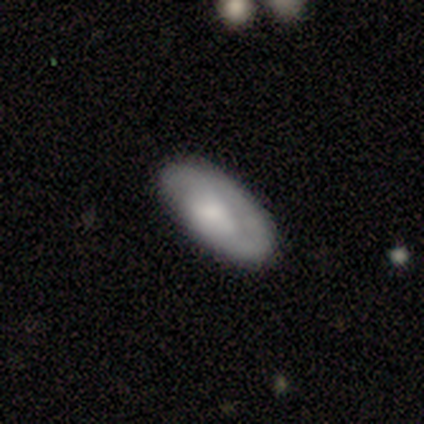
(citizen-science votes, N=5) Q: Smooth or featured?
A: smooth (100%)
Q: How rounded?
A: in between (40%); tied with: cigar-shaped (40%)
Q: Merging?
A: none (100%)